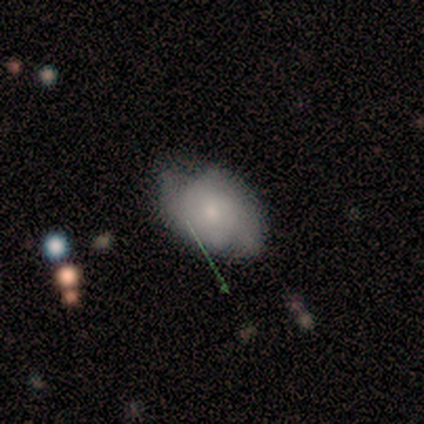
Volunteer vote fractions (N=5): A smooth galaxy with no disk features (80%) that is in between round and cigar-shaped (100%).

Vote fractions:
- Smooth or featured? smooth: 80% / featured or disk: 20% / star or artifact: 0%
- How rounded? in between: 100% / round: 0% / cigar-shaped: 0%
- Merging? none: 60% / minor disturbance: 40% / major disturbance: 0% / merger: 0%